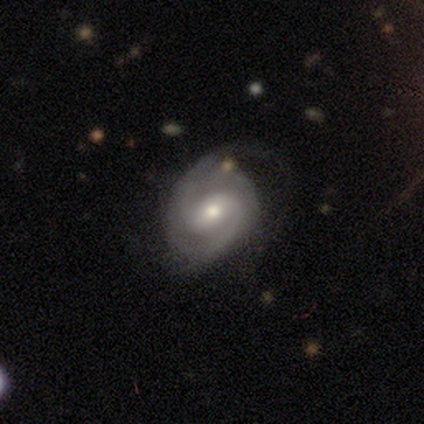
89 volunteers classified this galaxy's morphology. type=featured or disk (94%); edge-on=no (96%); bar=weak (64%); spiral arms=yes (100%); winding=medium (52%); arm count=2 (80%); bulge=moderate (74%); merging=none (74%).